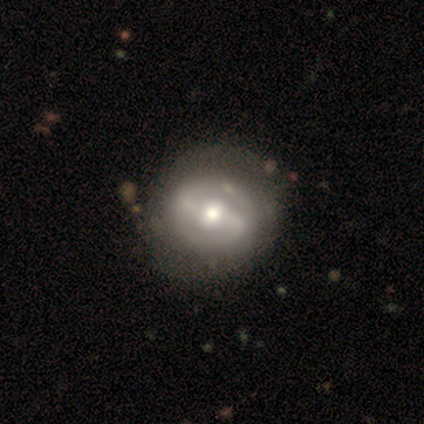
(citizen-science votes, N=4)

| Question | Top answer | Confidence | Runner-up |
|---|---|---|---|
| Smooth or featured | featured or disk | 75% | smooth (25%) |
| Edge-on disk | no | 100% | — |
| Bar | strong | 100% | — |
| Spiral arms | yes | 100% | — |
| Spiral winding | tight | 33% | tied: medium (33%), loose (33%) |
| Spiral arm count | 2 | 67% | 1 (33%) |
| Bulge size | moderate | 67% | large (33%) |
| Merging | none | 100% | — |